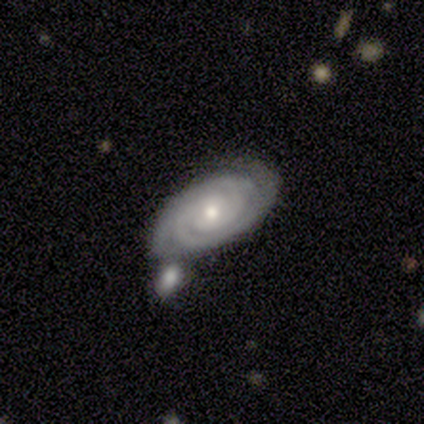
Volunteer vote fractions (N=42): Overall: featured or disk (93%). Edge-on disk: no (100%). Bar: no (74%). Spiral arms: yes (100%). Spiral arm count: 2 (67%). Spiral winding: tight (87%). Bulge size: moderate (54%; small 38%). Merging: none (45%; merger 38%).